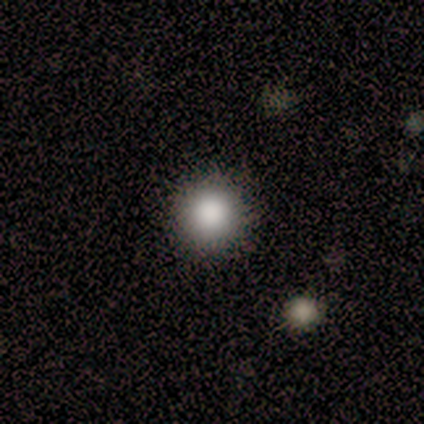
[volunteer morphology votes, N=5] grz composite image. It shows a smooth galaxy with no disk features (100%) that is round (100%). Merging: none (100%).